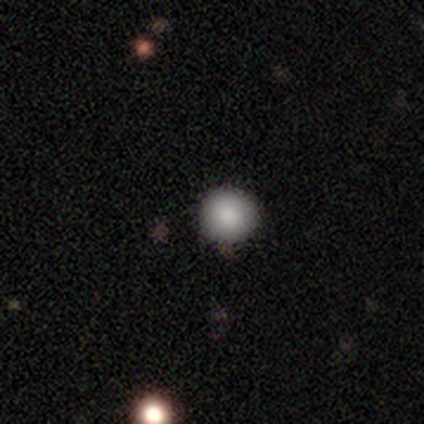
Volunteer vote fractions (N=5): Overall: smooth (100%). How rounded: round (100%). Merging: none (100%).